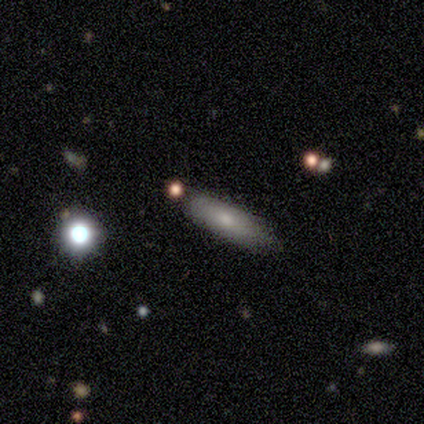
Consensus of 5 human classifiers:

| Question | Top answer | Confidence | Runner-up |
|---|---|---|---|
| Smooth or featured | smooth | 100% | — |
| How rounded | cigar-shaped | 80% | in between (20%) |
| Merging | none | 60% | minor disturbance (20%) |